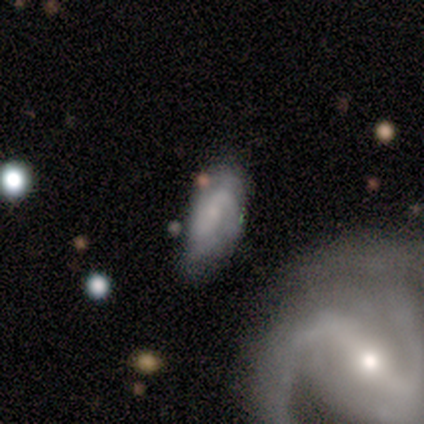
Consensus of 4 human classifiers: Smooth or featured? 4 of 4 (100%) said featured or disk. Edge-on disk? 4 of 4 (100%) said no. Bar? 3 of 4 (75%) said weak. Spiral arms? 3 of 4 (75%) said yes. Spiral winding? 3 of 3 (100%) said medium. Spiral arm count? 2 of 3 (67%) said 2. Bulge size? 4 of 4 (100%) said small. Merging? 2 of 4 (50%, tied with minor disturbance) said none.